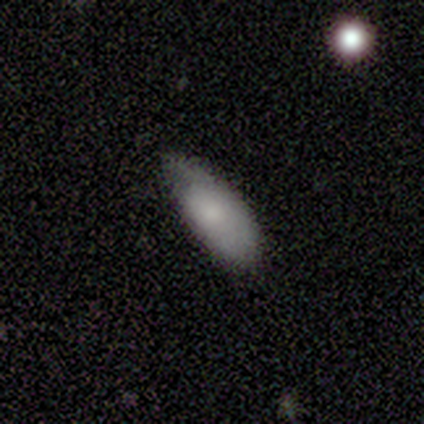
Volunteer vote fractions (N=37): smooth_or_featured: smooth (p=0.76) [alt: star or artifact p=0.14]
how_rounded: in between (p=0.86) [alt: round p=0.07]
merging: minor disturbance (p=0.56) [alt: none p=0.34]